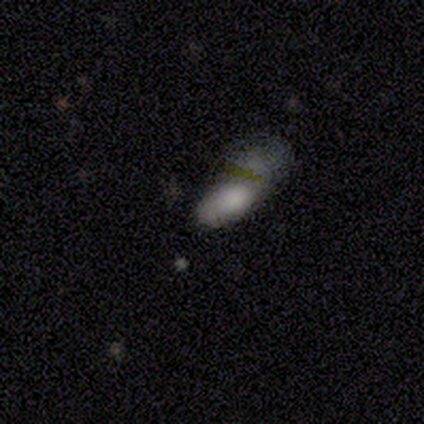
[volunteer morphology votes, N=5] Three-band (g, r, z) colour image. It shows a smooth galaxy with no disk features (60%) that is in between round and cigar-shaped (67%). Merging: none (50%, tied with major disturbance).